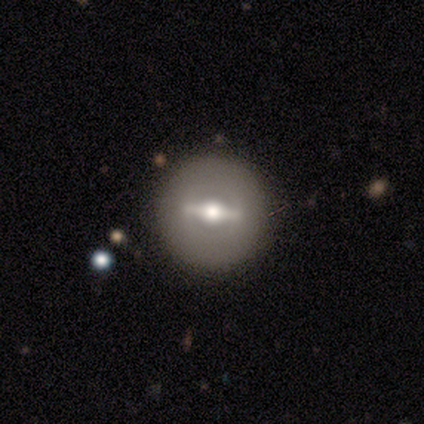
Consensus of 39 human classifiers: Smooth or featured: featured or disk — 72% (smooth — 21%)
Edge-on disk: no — 61% (yes — 39%)
Bar: strong — 76% (weak — 18%)
Spiral arms: no — 94% (yes — 6%)
Bulge size: moderate — 71% (small — 24%)
Merging: none — 92% (minor disturbance — 6%)